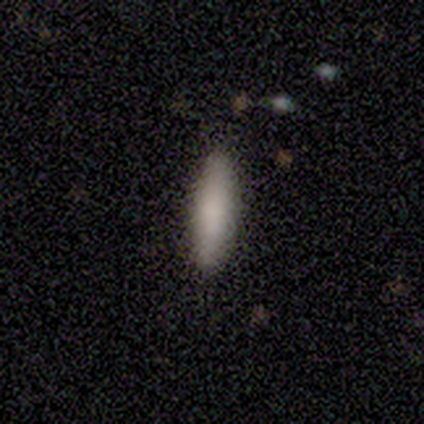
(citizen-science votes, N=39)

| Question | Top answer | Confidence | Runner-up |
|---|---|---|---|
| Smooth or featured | smooth | 90% | star or artifact (10%) |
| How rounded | cigar-shaped | 66% | in between (34%) |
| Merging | none | 97% | merger (3%) |